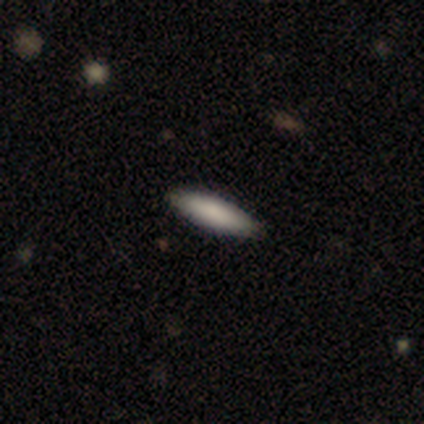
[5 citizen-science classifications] smooth_or_featured: smooth (p=0.80) [alt: featured or disk p=0.20]
how_rounded: in between (p=0.75) [alt: cigar-shaped p=0.25]
merging: none (p=0.80) [alt: minor disturbance p=0.20]